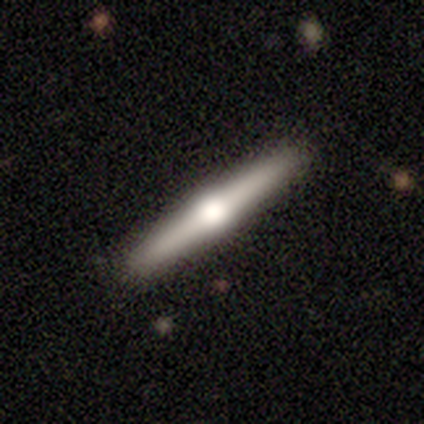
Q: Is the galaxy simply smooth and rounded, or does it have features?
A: featured or disk — 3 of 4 (75%).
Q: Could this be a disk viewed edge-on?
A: yes — 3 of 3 (100%).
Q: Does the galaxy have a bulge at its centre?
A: rounded — 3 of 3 (100%).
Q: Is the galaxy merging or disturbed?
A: none — 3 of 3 (100%).